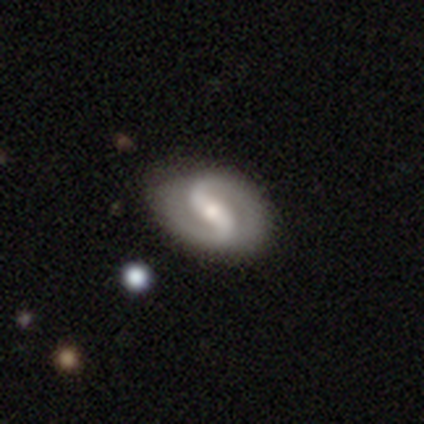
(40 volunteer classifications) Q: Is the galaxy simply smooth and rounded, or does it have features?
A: featured or disk — 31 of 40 (78%).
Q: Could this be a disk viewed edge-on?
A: no — 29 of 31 (94%).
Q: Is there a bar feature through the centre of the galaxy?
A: weak — 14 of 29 (48%).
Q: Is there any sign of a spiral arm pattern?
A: yes — 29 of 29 (100%).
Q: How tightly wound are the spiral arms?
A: loose — 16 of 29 (55%).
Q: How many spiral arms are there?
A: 2 — 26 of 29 (90%).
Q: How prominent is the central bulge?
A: small — 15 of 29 (52%).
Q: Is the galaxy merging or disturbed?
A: none — 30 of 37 (81%).